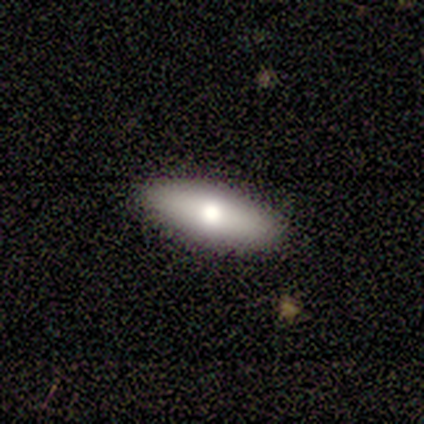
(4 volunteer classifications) smooth 50% (tied), featured or disk 50% (tied), star or artifact 0%. Down the decision tree: how rounded — in between (50%, tied with cigar-shaped); merging — none (100%).